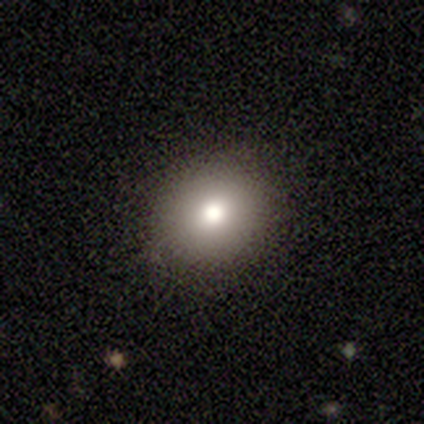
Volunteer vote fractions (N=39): A smooth galaxy with no disk features (77%) that is round (83%).

Vote fractions:
- Smooth or featured? smooth: 77% / star or artifact: 18% / featured or disk: 5%
- How rounded? round: 83% / in between: 17% / cigar-shaped: 0%
- Merging? none: 97% / minor disturbance: 3% / major disturbance: 0% / merger: 0%